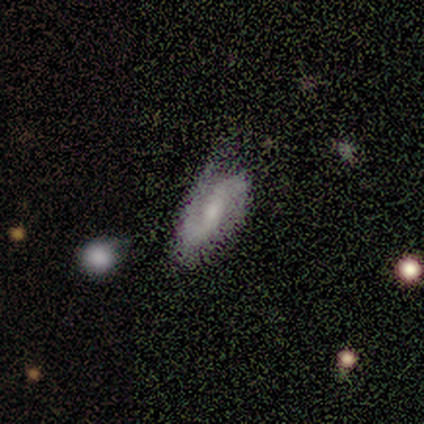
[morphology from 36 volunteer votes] Volunteers were most divided on "bar": no: 44%, weak: 40%, strong: 16%. Remaining: edge-on disk — no (96%); spiral arms — yes (92%); spiral arm count — 2 (87%); smooth or featured — featured or disk (72%); bulge size — small (44%); spiral winding — medium (43%); merging — none (36%).